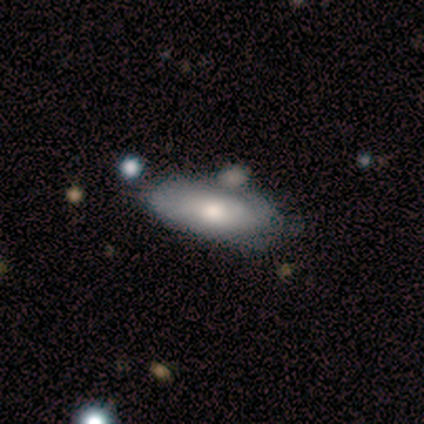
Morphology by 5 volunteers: A smooth galaxy with no disk features (60%) that is in between round and cigar-shaped (67%).

Vote fractions:
- Smooth or featured? smooth: 60% / featured or disk: 40% / star or artifact: 0%
- How rounded? in between: 67% / cigar-shaped: 33% / round: 0%
- Merging? none: 40% (tied) / merger: 40% (tied) / minor disturbance: 20% / major disturbance: 0%